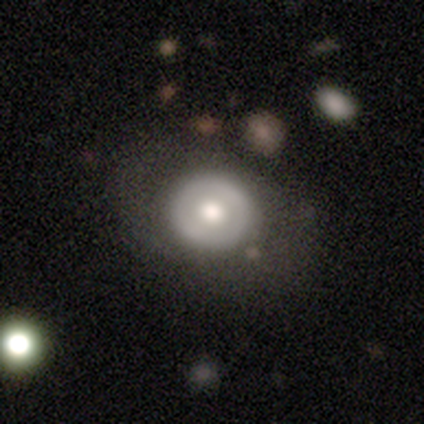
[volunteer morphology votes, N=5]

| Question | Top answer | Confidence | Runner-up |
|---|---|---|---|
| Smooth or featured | smooth | 80% | featured or disk (20%) |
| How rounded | round | 100% | — |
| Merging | none | 60% | minor disturbance (20%) |